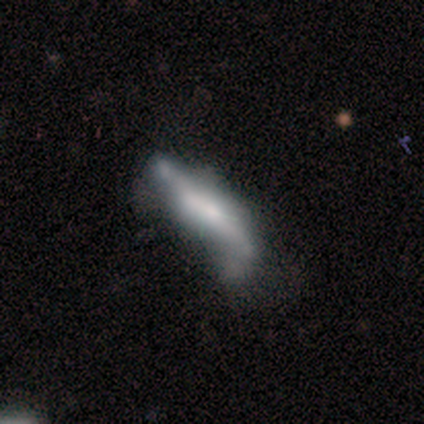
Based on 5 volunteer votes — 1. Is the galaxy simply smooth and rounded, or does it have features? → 60% featured or disk, 40% star or artifact, 0% smooth.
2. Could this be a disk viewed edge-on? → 67% yes, 33% no.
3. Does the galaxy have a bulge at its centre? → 50% boxy (tied), 50% none (tied), 0% rounded.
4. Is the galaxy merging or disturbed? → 33% none (tied), 33% minor disturbance (tied), 33% major disturbance (tied), 0% merger.